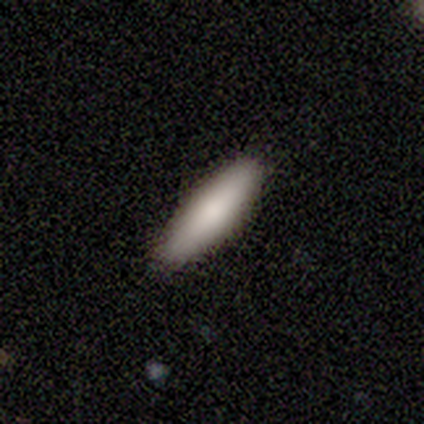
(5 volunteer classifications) This is clearly a smooth galaxy (100%). How rounded: clearly in between (100%). Merging: likely none (60%).